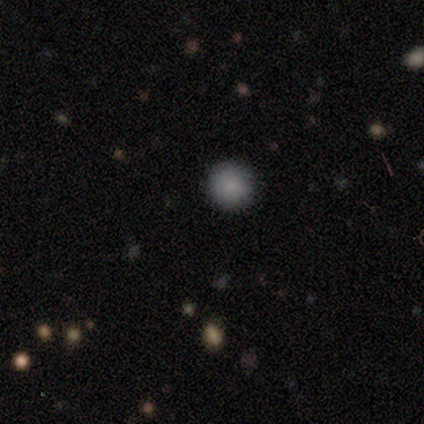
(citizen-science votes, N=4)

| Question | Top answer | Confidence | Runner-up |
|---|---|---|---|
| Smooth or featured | smooth | 100% | — |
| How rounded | round | 100% | — |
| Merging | none | 100% | — |